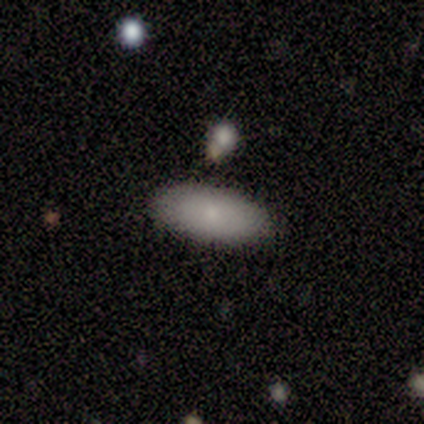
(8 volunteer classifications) Smooth or featured? smooth (88%)
How rounded? in between (86%)
Merging? none (75%)